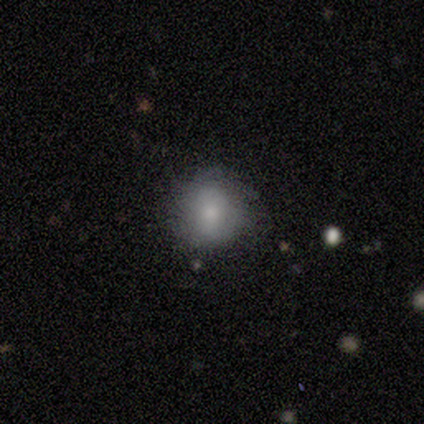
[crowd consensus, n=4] smooth_or_featured: smooth (p=0.50) [alt: featured or disk p=0.25]
how_rounded: round (p=1.00)
merging: minor disturbance (p=1.00)